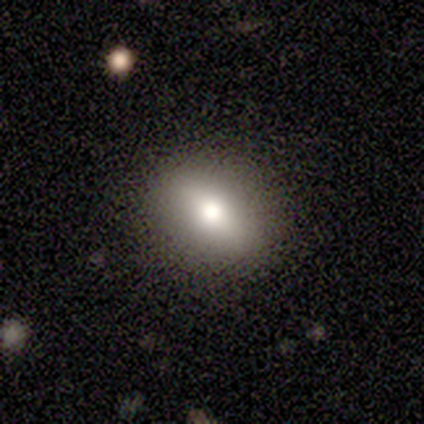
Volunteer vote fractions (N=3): Q: Smooth or featured?
A: smooth (67%); runner-up: featured or disk (33%)
Q: How rounded?
A: round (50%); tied with: in between (50%)
Q: Merging?
A: none (67%); runner-up: minor disturbance (33%)